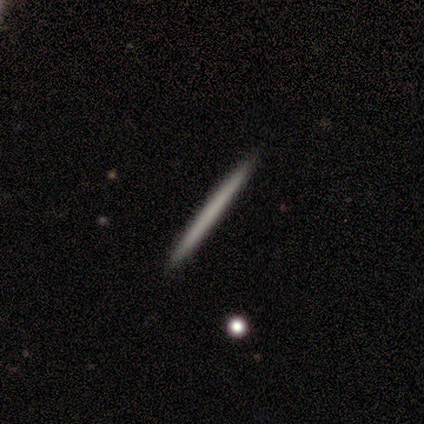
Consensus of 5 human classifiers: Morphology: type=smooth (40%, tied with featured or disk); roundness=cigar-shaped (100%); merging=none (100%).